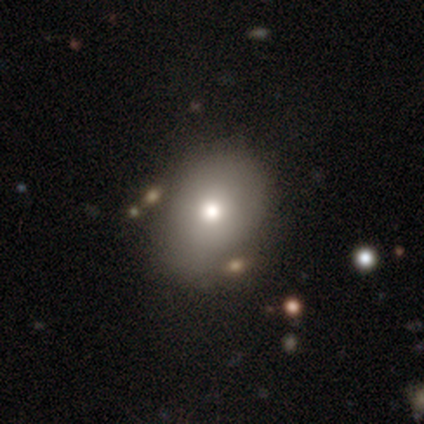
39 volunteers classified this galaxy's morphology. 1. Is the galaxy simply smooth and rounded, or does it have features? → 74% smooth, 21% featured or disk, 5% star or artifact.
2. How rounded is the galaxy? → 52% in between, 45% round, 3% cigar-shaped.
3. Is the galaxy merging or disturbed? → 65% none, 24% minor disturbance, 5% major disturbance, 5% merger.